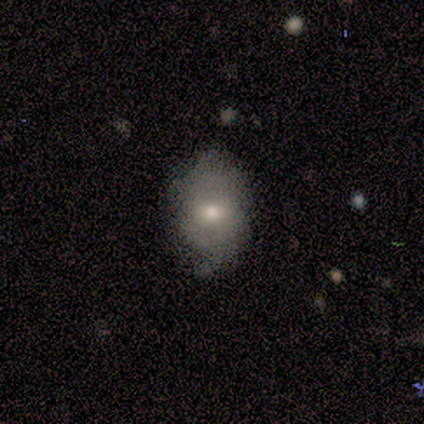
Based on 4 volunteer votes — A smooth galaxy with no disk features (75%) that is in between round and cigar-shaped (100%).

Vote fractions:
- Smooth or featured? smooth: 75% / star or artifact: 25% / featured or disk: 0%
- How rounded? in between: 100% / round: 0% / cigar-shaped: 0%
- Merging? none: 67% / minor disturbance: 33% / major disturbance: 0% / merger: 0%